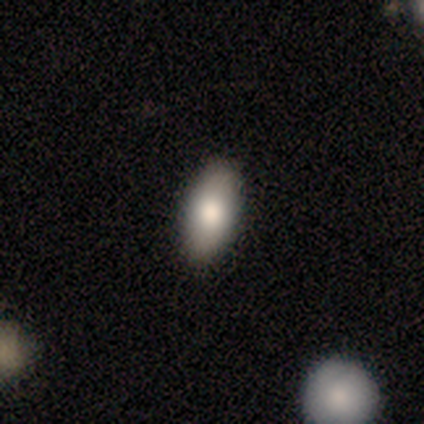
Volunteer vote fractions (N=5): Smooth or featured? 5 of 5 (100%) said smooth. How rounded? 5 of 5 (100%) said in between. Merging? 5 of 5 (100%) said none.